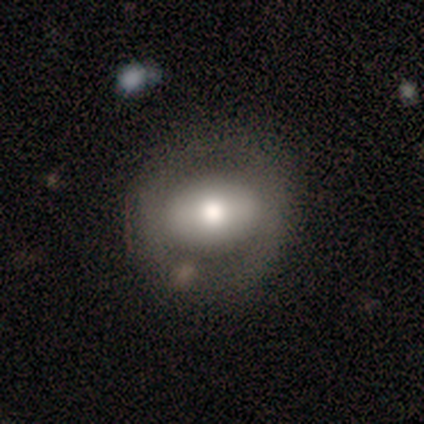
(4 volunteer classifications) A smooth galaxy with no disk features (50%, tied with featured or disk) that is round (50%, tied with in between). Merging: none (75%).